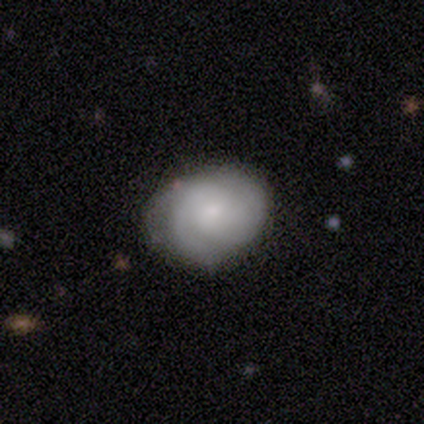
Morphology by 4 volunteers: Overall: featured or disk (75%). Edge-on disk: no (100%). Bar: no (67%; weak 33%). Spiral arms: yes (100%). Spiral arm count: 2 (67%; 3 33%). Spiral winding: medium (100%). Bulge size: small (67%; moderate 33%). Merging: none (100%).